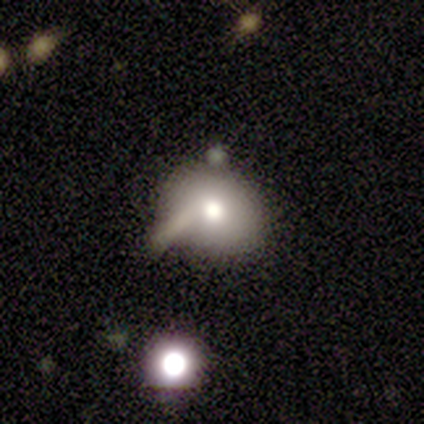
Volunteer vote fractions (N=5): smooth_or_featured: smooth (p=0.80) [alt: featured or disk p=0.20]
how_rounded: round (p=0.75) [alt: in between p=0.25]
merging: none (p=0.40) [alt: minor disturbance p=0.20]